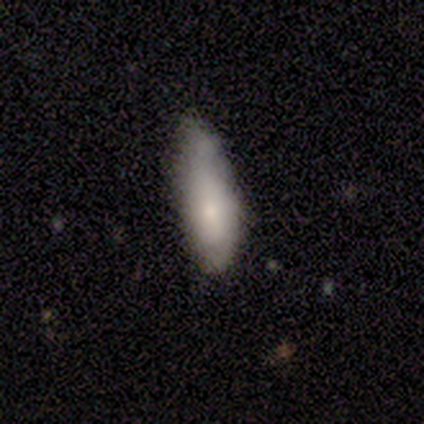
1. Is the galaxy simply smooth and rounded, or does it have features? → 72% smooth, 15% featured or disk, 13% star or artifact.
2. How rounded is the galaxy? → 75% in between, 25% cigar-shaped, 0% round.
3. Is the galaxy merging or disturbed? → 47% none, 35% minor disturbance, 18% major disturbance, 0% merger.